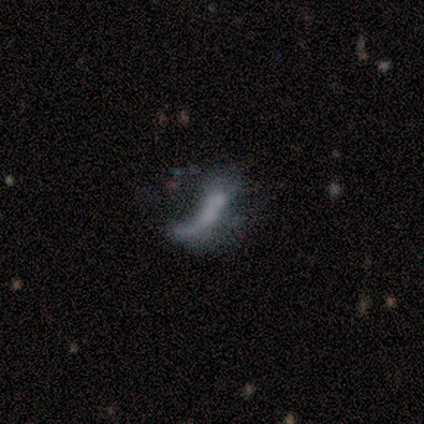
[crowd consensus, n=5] featured or disk 100%, smooth 0%, star or artifact 0%. Down the decision tree: edge-on disk — no (100%); bar — no (100%); spiral arms — no (100%); bulge size — none (100%); merging — none (40%, tied with major disturbance).